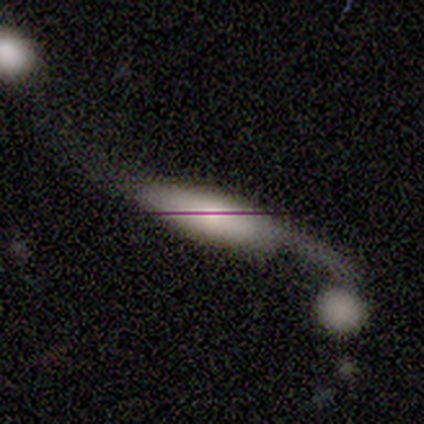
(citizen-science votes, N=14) Q: Smooth or featured?
A: smooth (43%); tied with: featured or disk (43%)
Q: How rounded?
A: in between (83%); runner-up: cigar-shaped (17%)
Q: Merging?
A: major disturbance (42%); runner-up: merger (33%)